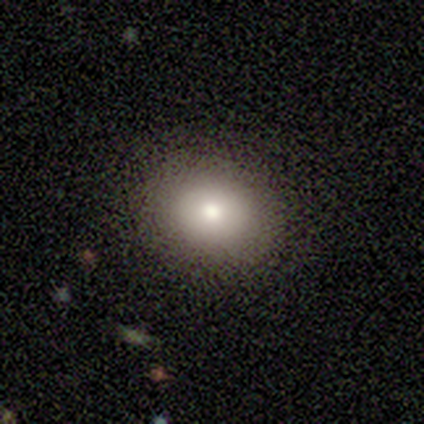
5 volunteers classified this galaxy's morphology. Volunteers were most divided on "smooth or featured": smooth: 60%, star or artifact: 40%, featured or disk: 0%. More confident: merging — none (100%); how rounded — in between (67%).